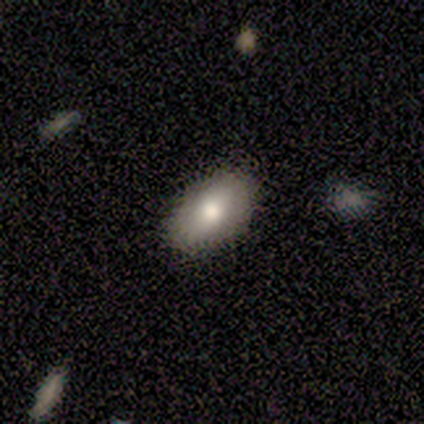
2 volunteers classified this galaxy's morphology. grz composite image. It shows a smooth galaxy with no disk features (100%) that is in between round and cigar-shaped (100%). Merging: none (100%).